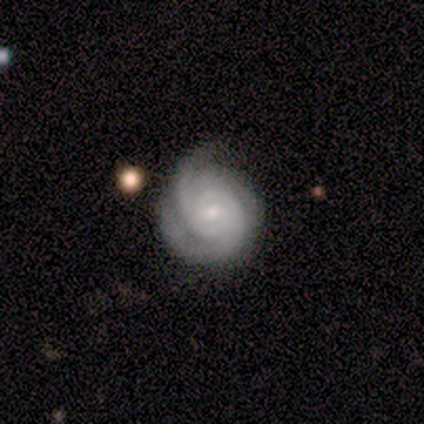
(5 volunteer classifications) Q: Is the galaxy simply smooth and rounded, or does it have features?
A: featured or disk — 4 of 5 (80%).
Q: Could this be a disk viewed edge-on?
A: no — 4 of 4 (100%).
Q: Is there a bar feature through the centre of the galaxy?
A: weak — 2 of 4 (50%, tied with no).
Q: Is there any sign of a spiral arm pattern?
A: yes — 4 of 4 (100%).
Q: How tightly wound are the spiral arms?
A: tight — 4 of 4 (100%).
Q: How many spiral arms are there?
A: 2 — 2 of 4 (50%).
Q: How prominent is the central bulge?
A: small — 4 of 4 (100%).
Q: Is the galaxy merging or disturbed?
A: none — 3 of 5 (60%).